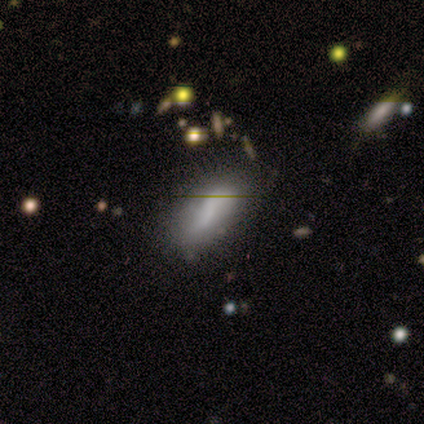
Morphology: type=smooth (42%, tied with featured or disk); roundness=in between (60%); merging=none (60%).